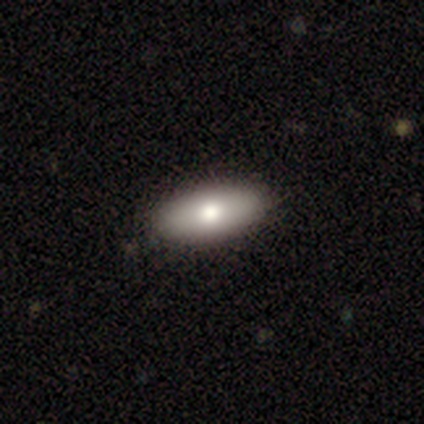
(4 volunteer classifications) Overall: smooth (100%). How rounded: in between (100%). Merging: none (100%).